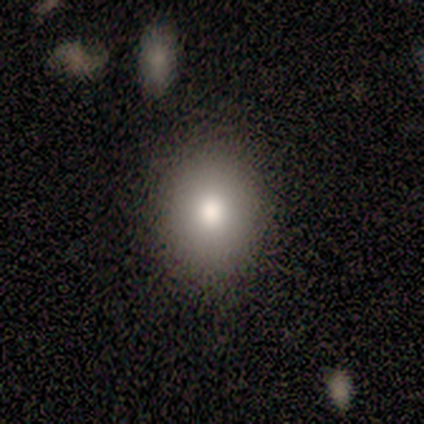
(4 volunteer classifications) smooth-or-featured: smooth: 100% | featured or disk: 0% | star or artifact: 0%
  how-rounded: round: 50% (tied) | in between: 50% (tied) | cigar-shaped: 0%
  merging: none: 100% | minor disturbance: 0% | major disturbance: 0% | merger: 0%